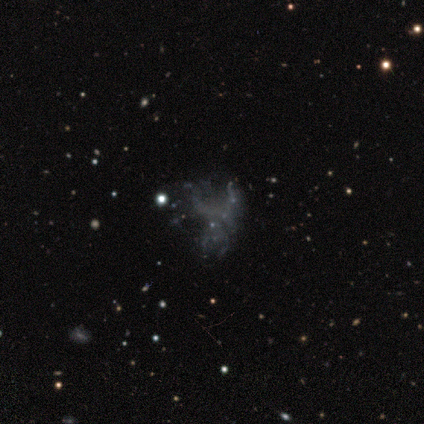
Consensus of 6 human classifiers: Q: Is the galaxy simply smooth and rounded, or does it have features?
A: featured or disk — 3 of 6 (50%, tied with star or artifact).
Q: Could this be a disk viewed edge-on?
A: no — 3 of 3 (100%).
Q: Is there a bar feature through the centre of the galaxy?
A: no — 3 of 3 (100%).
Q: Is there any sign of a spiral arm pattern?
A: no — 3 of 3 (100%).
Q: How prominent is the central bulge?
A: none — 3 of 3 (100%).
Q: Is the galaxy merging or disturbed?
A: none — 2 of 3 (67%).